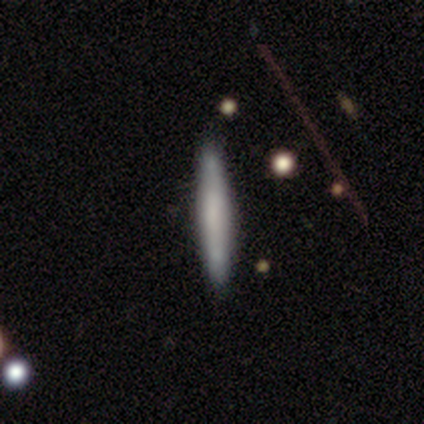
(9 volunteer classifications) smooth_or_featured: smooth (p=0.89) [alt: featured or disk p=0.11]
how_rounded: cigar-shaped (p=1.00)
merging: none (p=0.89) [alt: minor disturbance p=0.11]